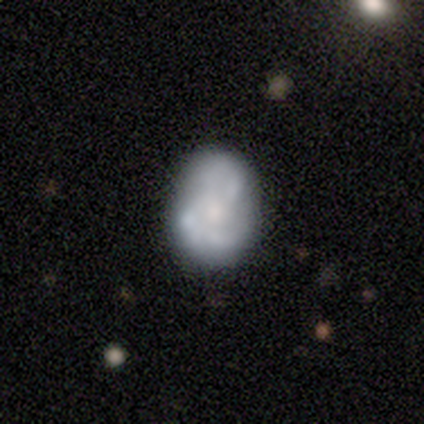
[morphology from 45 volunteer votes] smooth-or-featured: smooth: 47% | featured or disk: 44% | star or artifact: 9%
  how-rounded: in between: 71% | round: 29% | cigar-shaped: 0%
  merging: none: 56% | minor disturbance: 27% | major disturbance: 10% | merger: 7%